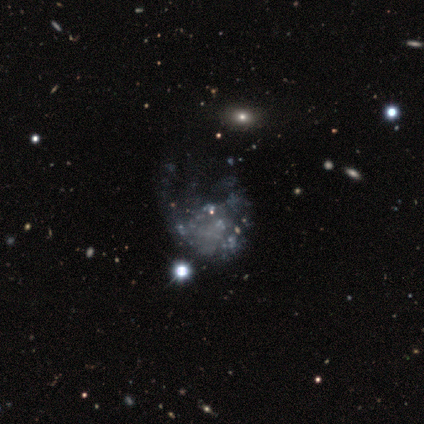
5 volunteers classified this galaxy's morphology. A featured or disk galaxy (60%) with no bar (100%), no spiral arms (67%) and no central bulge (67%).

Vote fractions:
- Smooth or featured? featured or disk: 60% / smooth: 20% / star or artifact: 20%
- Edge-on disk? no: 100% / yes: 0%
- Bar? no: 100% / strong: 0% / weak: 0%
- Spiral arms? no: 67% / yes: 33%
- Bulge size? none: 67% / dominant: 33% / large: 0% / moderate: 0% / small: 0%
- Merging? none: 50% / minor disturbance: 25% / major disturbance: 25% / merger: 0%